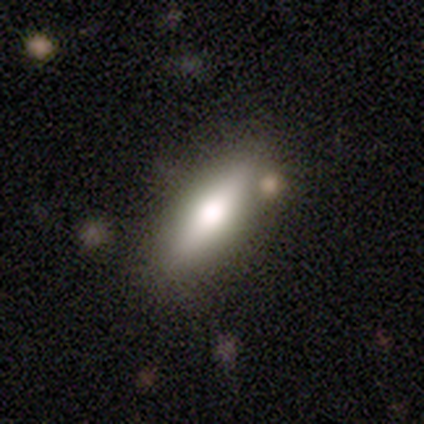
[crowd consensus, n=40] smooth-or-featured: smooth: 75% | featured or disk: 20% | star or artifact: 5%
  how-rounded: in between: 57% | cigar-shaped: 40% | round: 3%
  merging: none: 76% | minor disturbance: 11% | merger: 11% | major disturbance: 3%